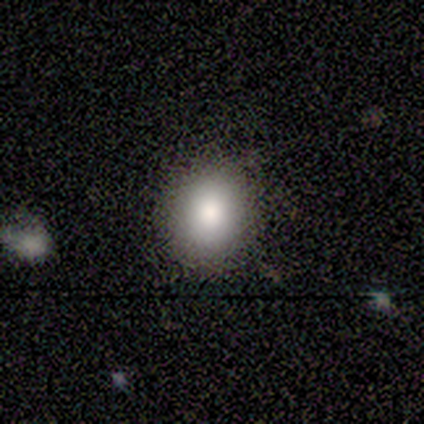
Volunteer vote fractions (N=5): smooth-or-featured: smooth: 60% | featured or disk: 20% | star or artifact: 20%
  how-rounded: round: 100% | in between: 0% | cigar-shaped: 0%
  merging: none: 100% | minor disturbance: 0% | major disturbance: 0% | merger: 0%